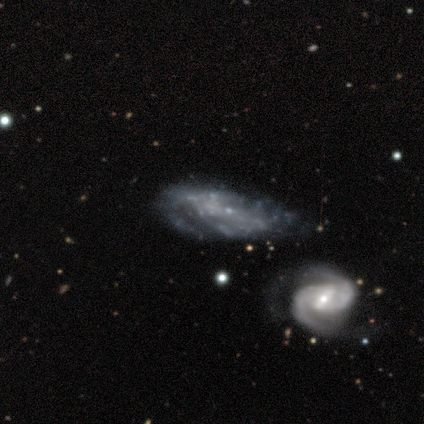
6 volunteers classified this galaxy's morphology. This appears to be a featured or disk galaxy (83%) with no bar (80%), 1 (67%) medium (100%) spiral arms (60%) and no central bulge (80%). Merging: merger (50%).